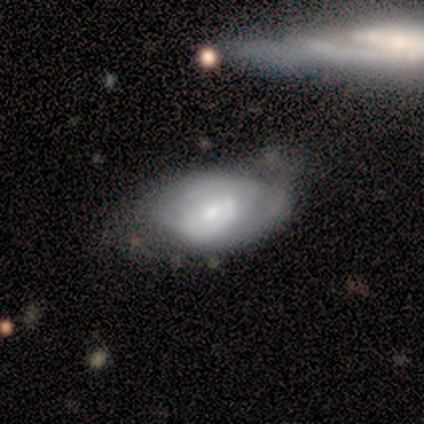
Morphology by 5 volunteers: This appears to be a smooth galaxy with no disk features (60%) that is in between round and cigar-shaped (100%). Merging: minor disturbance (60%).